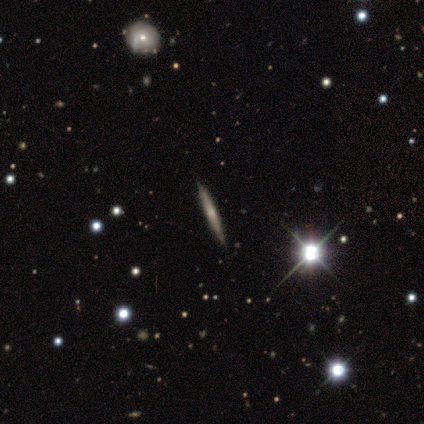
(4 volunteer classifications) Smooth or featured? smooth (50%)
How rounded? cigar-shaped (100%)
Merging? none (67%)